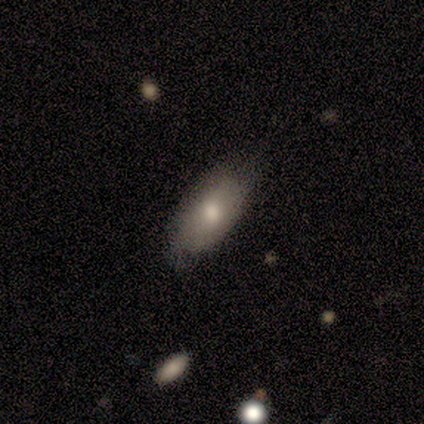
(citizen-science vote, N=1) A smooth galaxy with no disk features (100%) that is in between round and cigar-shaped (100%).

Vote fractions:
- Smooth or featured? smooth: 100% / featured or disk: 0% / star or artifact: 0%
- How rounded? in between: 100% / round: 0% / cigar-shaped: 0%
- Merging? minor disturbance: 100% / none: 0% / major disturbance: 0% / merger: 0%